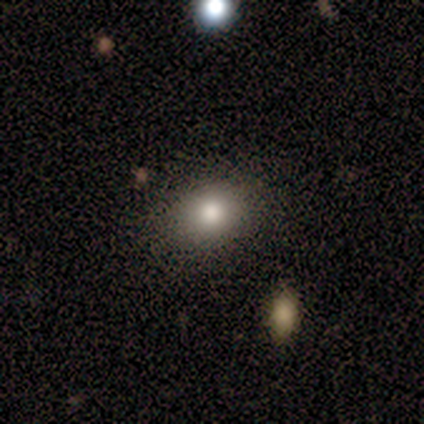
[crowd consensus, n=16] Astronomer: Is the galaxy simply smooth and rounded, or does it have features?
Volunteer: smooth — 50% (runner-up: featured or disk, 31%).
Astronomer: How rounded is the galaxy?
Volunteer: round — 50%, tied with in between at 50%.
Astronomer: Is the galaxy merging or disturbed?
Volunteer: none — 92%.